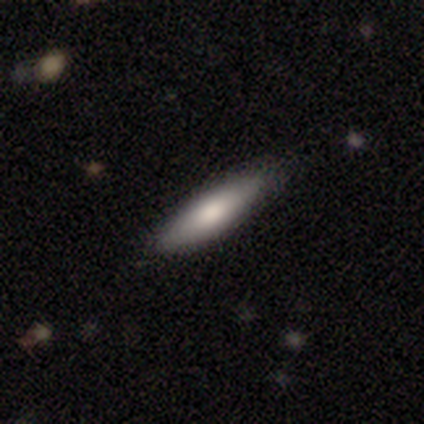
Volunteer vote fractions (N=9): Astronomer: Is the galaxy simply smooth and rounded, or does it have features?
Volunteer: smooth — 78%.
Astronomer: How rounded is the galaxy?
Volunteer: cigar-shaped — 86%.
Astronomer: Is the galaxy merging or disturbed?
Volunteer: none — 78%.